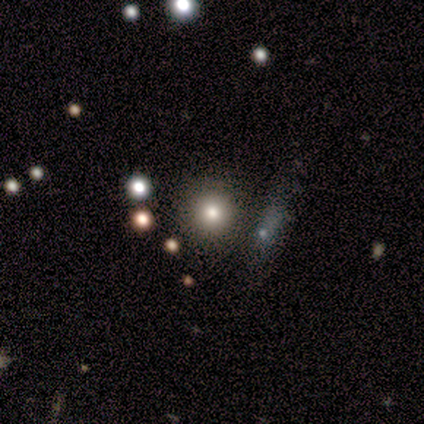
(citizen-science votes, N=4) smooth_or_featured: smooth (p=0.75) [alt: star or artifact p=0.25]
how_rounded: round (p=1.00)
merging: none (p=1.00)